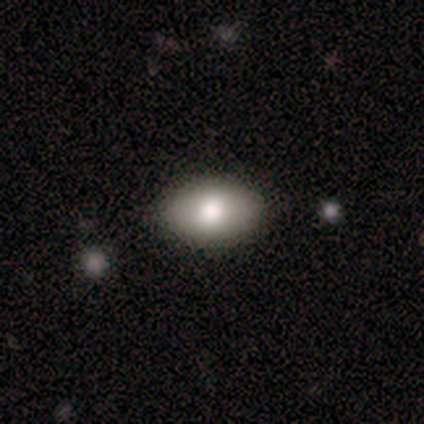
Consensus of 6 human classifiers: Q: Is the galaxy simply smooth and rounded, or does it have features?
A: smooth — 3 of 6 (50%).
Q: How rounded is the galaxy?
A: in between — 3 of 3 (100%).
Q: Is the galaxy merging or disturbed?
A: none — 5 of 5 (100%).